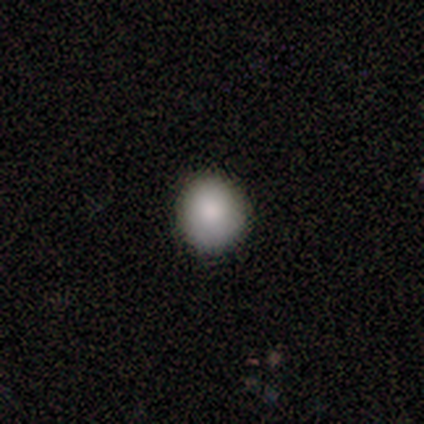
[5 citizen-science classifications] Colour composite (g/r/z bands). It shows a smooth galaxy with no disk features (80%) that is round (100%). Merging: none (100%).